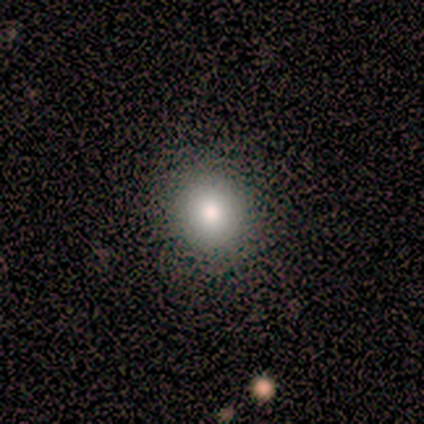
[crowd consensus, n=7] Smooth or featured?
  - smooth: 100% *
  - featured or disk: 0%
  - star or artifact: 0%
How rounded?
  - round: 86% *
  - in between: 14%
  - cigar-shaped: 0%
Merging?
  - none: 86% *
  - minor disturbance: 14%
  - major disturbance: 0%
  - merger: 0%